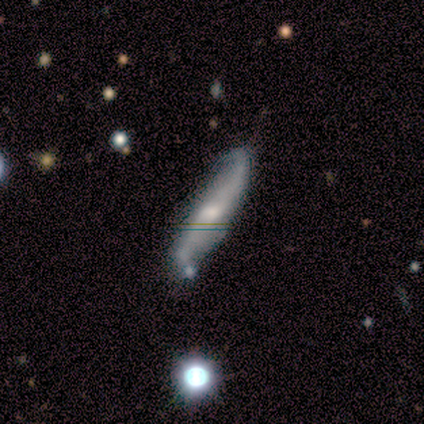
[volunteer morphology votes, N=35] This is likely a featured or disk galaxy (71%). It is likely not viewed edge-on (68%). Bar: marginally strong (35%, tied with weak). Spiral arm pattern: clearly yes (94%). Spiral arm count: clearly 2 (88%). Spiral winding: clearly loose (81%). Central bulge: marginally moderate (41%). Merging: possibly none (50%).